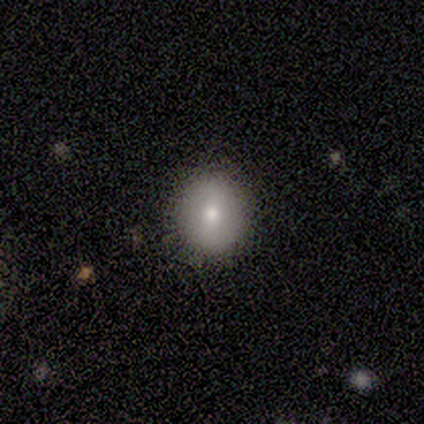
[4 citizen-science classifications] smooth_or_featured: smooth (p=0.50) [alt: featured or disk p=0.25]
how_rounded: round (p=0.50) [tied with: in between p=0.50]
merging: none (p=1.00)